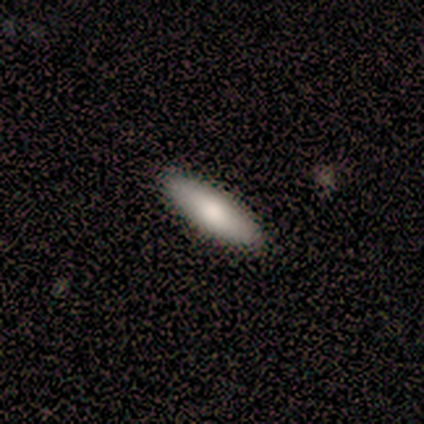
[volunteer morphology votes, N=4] Volunteers were most divided on "how rounded" (2-way tie): in between: 50%, cigar-shaped: 50%, round: 0%. More confident: merging — none (100%); smooth or featured — smooth (50%).